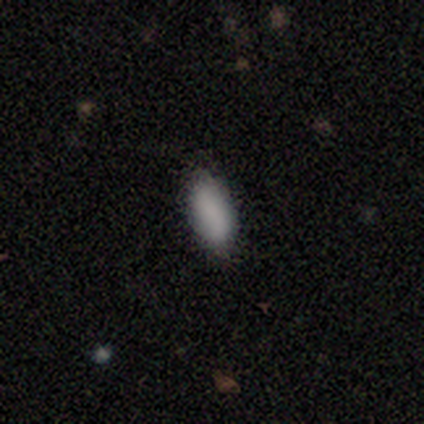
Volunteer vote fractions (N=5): This appears to be a smooth galaxy with no disk features (100%) that is in between round and cigar-shaped (100%). Merging: none (100%).